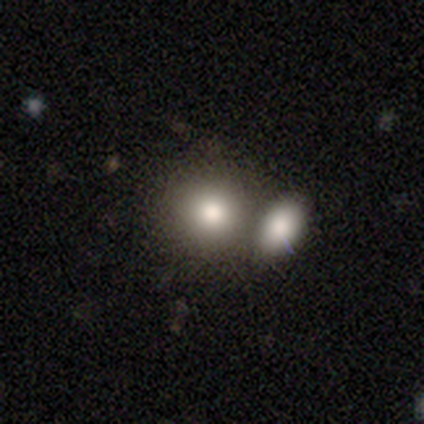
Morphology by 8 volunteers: Smooth or featured: smooth — 62% (featured or disk — 25%)
How rounded: round — 80% (in between — 20%)
Merging: none — 57% (merger — 43%)